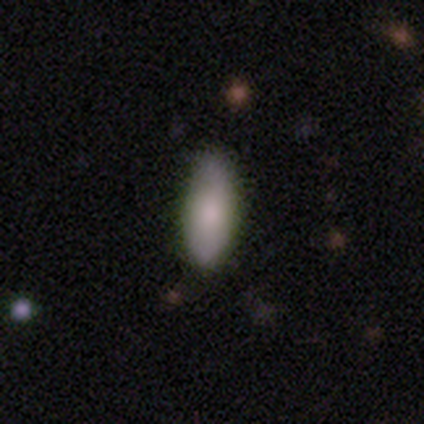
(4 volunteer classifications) A smooth galaxy with no disk features (100%) that is in between round and cigar-shaped (100%).

Vote fractions:
- Smooth or featured? smooth: 100% / featured or disk: 0% / star or artifact: 0%
- How rounded? in between: 100% / round: 0% / cigar-shaped: 0%
- Merging? none: 75% / minor disturbance: 25% / major disturbance: 0% / merger: 0%